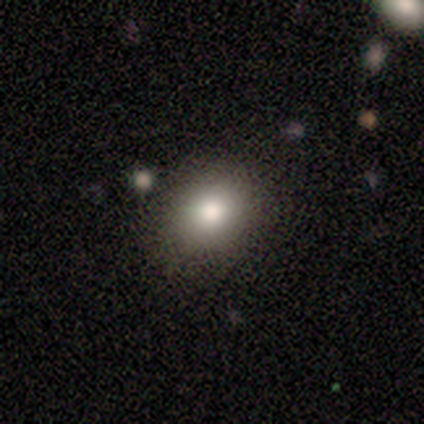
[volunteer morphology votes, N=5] A smooth galaxy with no disk features (100%) that is round (60%).

Vote fractions:
- Smooth or featured? smooth: 100% / featured or disk: 0% / star or artifact: 0%
- How rounded? round: 60% / in between: 40% / cigar-shaped: 0%
- Merging? none: 60% / minor disturbance: 40% / major disturbance: 0% / merger: 0%